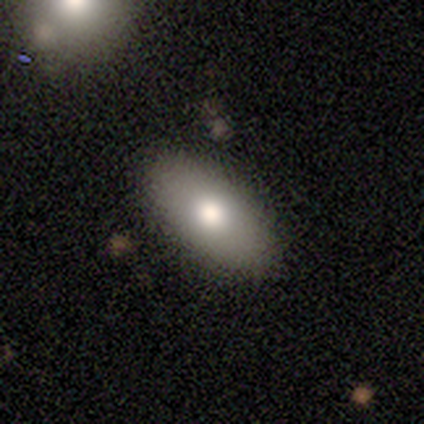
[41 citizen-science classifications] Smooth or featured: smooth — 80% (featured or disk — 17%)
How rounded: in between — 94% (cigar-shaped — 6%)
Merging: none — 78% (minor disturbance — 20%)